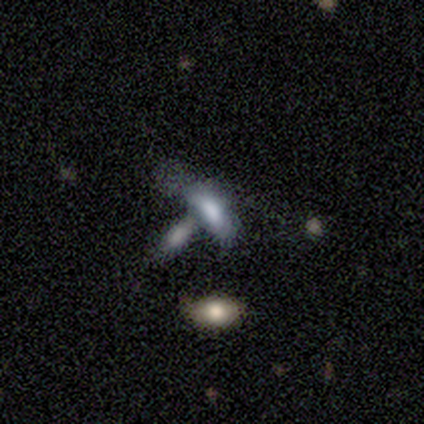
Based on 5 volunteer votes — This appears to be a smooth galaxy with no disk features (80%) that is in between round and cigar-shaped (100%). Merging: merger (80%).